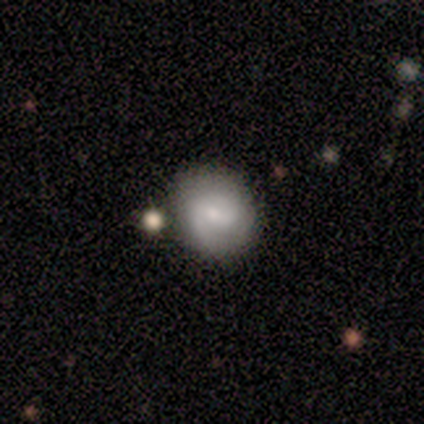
A featured or disk galaxy (60%) with a strong bar (33%, tied with weak and no), 2 (67%) tight (67%) spiral arms (100%) and a small central bulge (67%). Merging: none (50%).